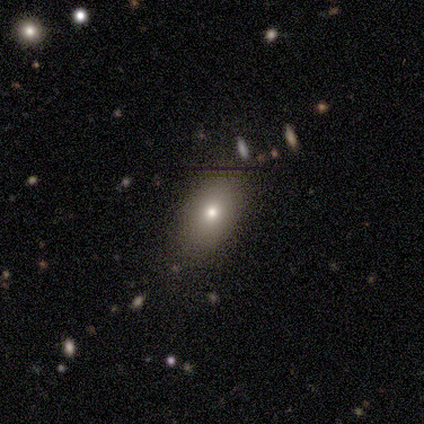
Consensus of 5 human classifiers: A smooth galaxy with no disk features (100%) that is in between round and cigar-shaped (80%). Merging: none (80%).